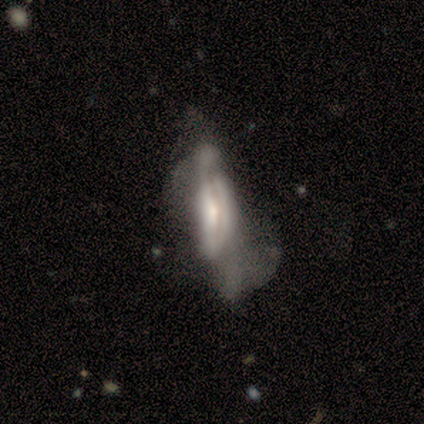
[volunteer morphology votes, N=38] A featured or disk galaxy (53%) with no bar (62%), no spiral arms (62%) and a small central bulge (38%).

Vote fractions:
- Smooth or featured? featured or disk: 53% / smooth: 32% / star or artifact: 16%
- Edge-on disk? no: 65% / yes: 35%
- Bar? no: 62% / weak: 23% / strong: 15%
- Spiral arms? no: 62% / yes: 38%
- Bulge size? small: 38% / moderate: 31% / large: 23% / dominant: 8% / none: 0%
- Merging? major disturbance: 62% / minor disturbance: 25% / none: 9% / merger: 3%